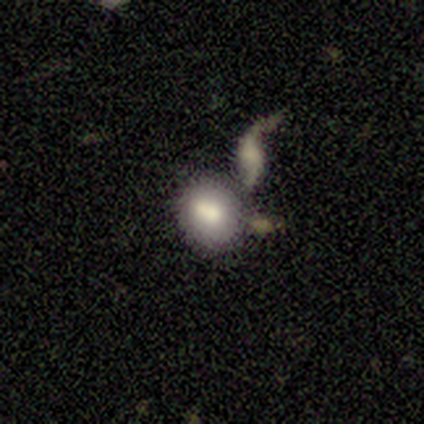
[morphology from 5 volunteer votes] Smooth or featured?
  - smooth: 60% *
  - featured or disk: 20%
  - star or artifact: 20%
How rounded?
  - round: 67% *
  - in between: 33%
  - cigar-shaped: 0%
Merging?
  - none: 75% *
  - merger: 25%
  - minor disturbance: 0%
  - major disturbance: 0%